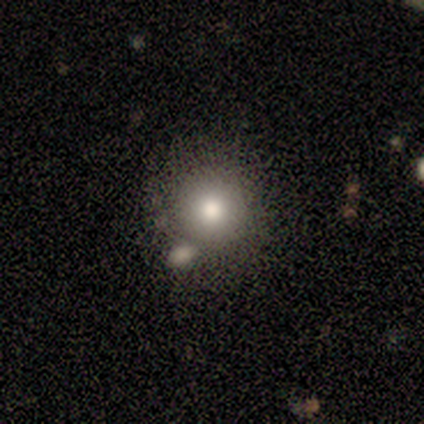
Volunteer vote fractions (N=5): Morphology: type=smooth (100%); roundness=round (100%); merging=major disturbance (40%).